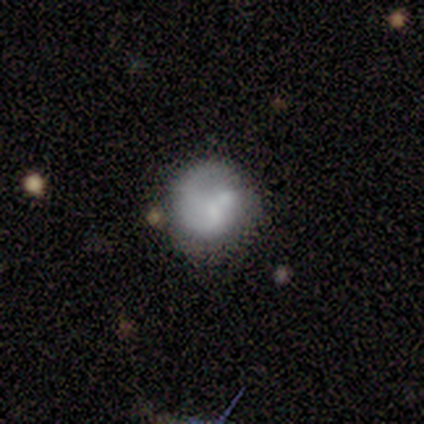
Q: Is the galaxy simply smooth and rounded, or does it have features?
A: smooth — 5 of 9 (56%).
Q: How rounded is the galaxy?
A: round — 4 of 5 (80%).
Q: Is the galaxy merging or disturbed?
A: none — 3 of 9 (33%, tied with major disturbance).